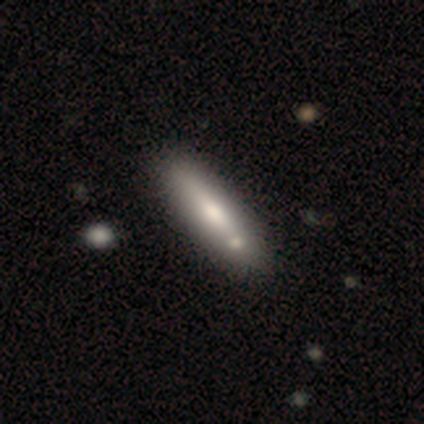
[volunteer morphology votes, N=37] This is likely a smooth galaxy (62%). How rounded: possibly cigar-shaped (57%). Merging: likely none (69%).